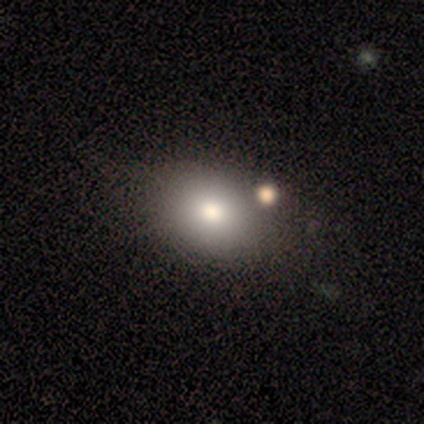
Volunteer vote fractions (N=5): A smooth galaxy with no disk features (80%) that is round (50%, tied with in between).

Vote fractions:
- Smooth or featured? smooth: 80% / featured or disk: 20% / star or artifact: 0%
- How rounded? round: 50% (tied) / in between: 50% (tied) / cigar-shaped: 0%
- Merging? none: 60% / minor disturbance: 20% / merger: 20% / major disturbance: 0%